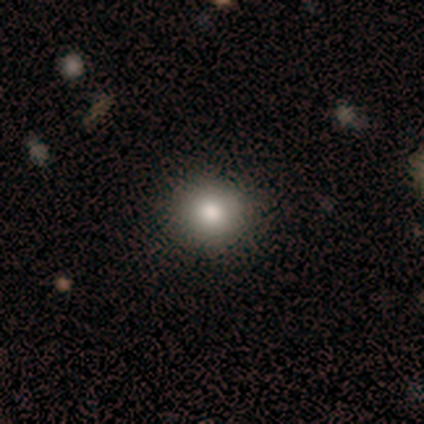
smooth-or-featured: smooth: 80% | featured or disk: 20% | star or artifact: 0%
  how-rounded: round: 100% | in between: 0% | cigar-shaped: 0%
  merging: none: 100% | minor disturbance: 0% | major disturbance: 0% | merger: 0%